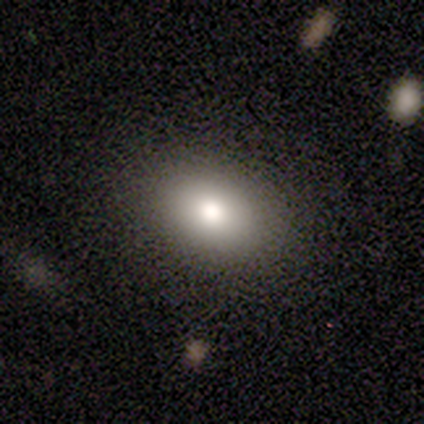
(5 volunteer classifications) This appears to be a smooth galaxy with no disk features (100%) that is in between round and cigar-shaped (100%). Merging: none (80%).